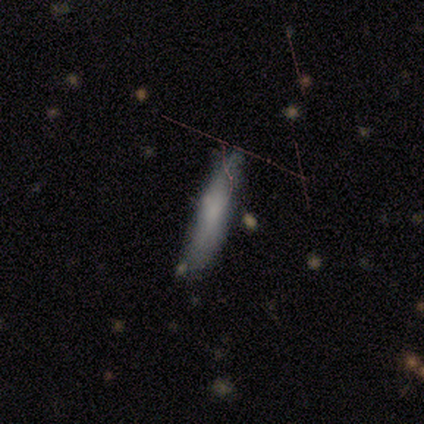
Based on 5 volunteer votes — This appears to be a featured or disk galaxy (60%) viewed edge-on (100%) with a rounded central bulge (67%). Merging: none (60%).